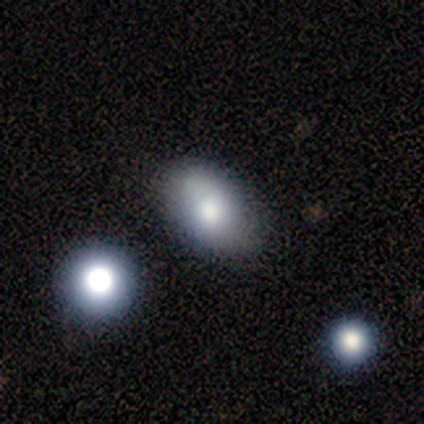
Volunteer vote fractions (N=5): Q: Smooth or featured?
A: star or artifact (60%); runner-up: smooth (20%)